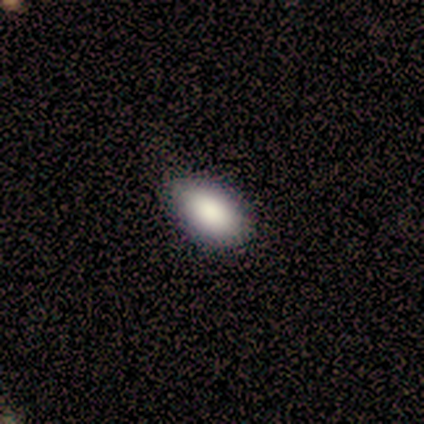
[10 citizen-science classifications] smooth_or_featured: smooth (p=1.00)
how_rounded: in between (p=1.00)
merging: none (p=0.90) [alt: minor disturbance p=0.10]